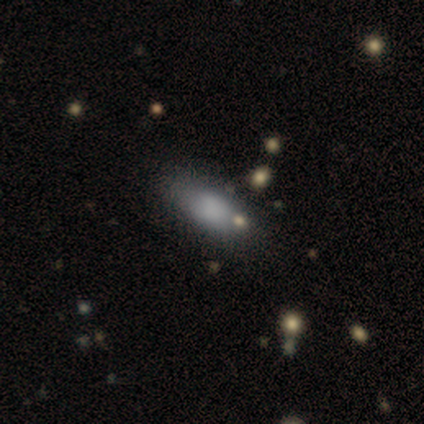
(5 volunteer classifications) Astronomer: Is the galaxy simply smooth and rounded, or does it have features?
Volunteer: smooth — 80%.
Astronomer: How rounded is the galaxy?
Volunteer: in between — 75%.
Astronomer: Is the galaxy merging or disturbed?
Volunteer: none — 75%.